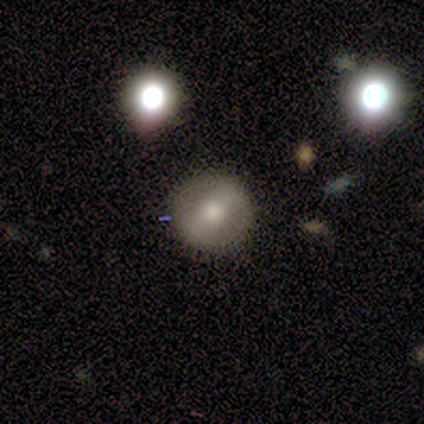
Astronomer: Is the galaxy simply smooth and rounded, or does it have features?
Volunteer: smooth — 60% (runner-up: featured or disk, 40%).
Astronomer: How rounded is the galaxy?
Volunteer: round — 100%.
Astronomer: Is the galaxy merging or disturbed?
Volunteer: none — 80%.